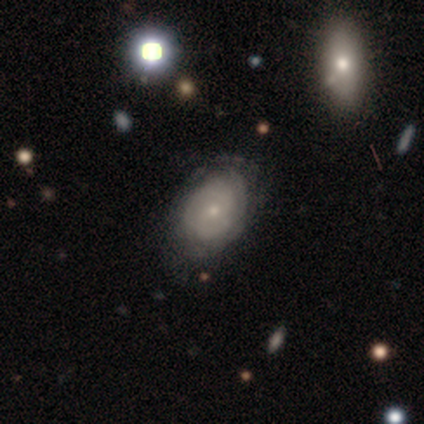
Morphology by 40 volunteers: Q: Smooth or featured?
A: featured or disk (57%); runner-up: smooth (38%)
Q: Edge-on disk?
A: no (96%); runner-up: yes (4%)
Q: Bar?
A: no (73%); runner-up: weak (27%)
Q: Spiral arms?
A: yes (77%); runner-up: no (23%)
Q: Spiral winding?
A: tight (47%); tied with: medium (47%)
Q: Spiral arm count?
A: can't tell (53%); runner-up: 2 (41%)
Q: Bulge size?
A: small (59%); runner-up: moderate (36%)
Q: Merging?
A: none (63%); runner-up: minor disturbance (21%)